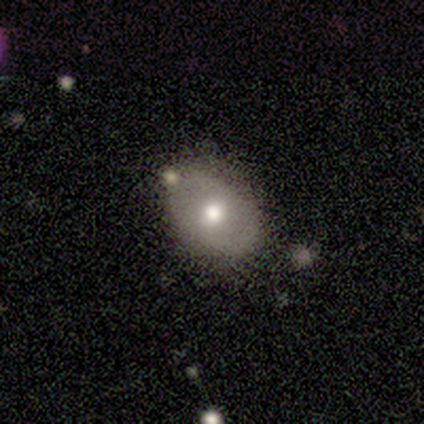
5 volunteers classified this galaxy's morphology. This is likely a featured or disk galaxy (60%). It is likely not viewed edge-on (67%). Bar: clearly no (100%). Spiral arm pattern: clearly no (100%). Central bulge: possibly moderate (50%, tied with small). Merging: likely minor disturbance (60%).